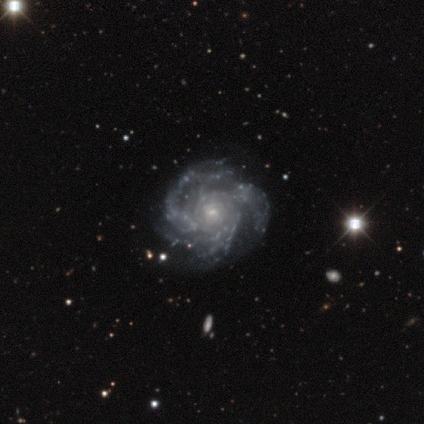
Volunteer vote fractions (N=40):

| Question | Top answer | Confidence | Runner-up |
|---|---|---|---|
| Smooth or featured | featured or disk | 92% | star or artifact (5%) |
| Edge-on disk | no | 100% | — |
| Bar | no | 76% | weak (19%) |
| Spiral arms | yes | 100% | — |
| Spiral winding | tight | 59% | medium (35%) |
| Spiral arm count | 3 | 46% | more than 4 (19%) |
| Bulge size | small | 76% | moderate (14%) |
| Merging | none | 55% | minor disturbance (18%) |